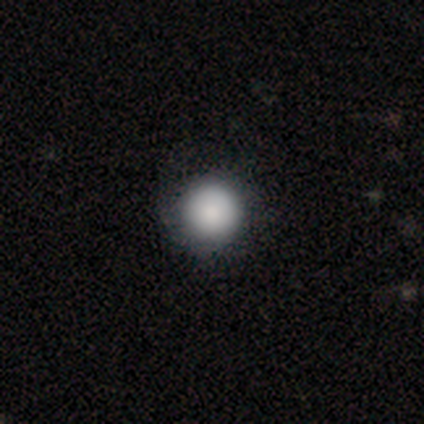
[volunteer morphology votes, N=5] Volunteers were most divided on "smooth or featured": smooth: 60%, featured or disk: 20%, star or artifact: 20%. More confident: how rounded — round (100%); merging — none (75%).